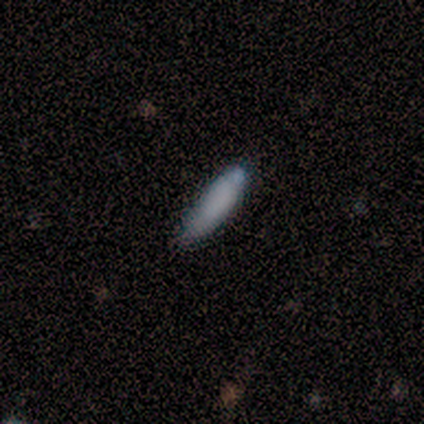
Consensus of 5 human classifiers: Volunteers were most divided on "how rounded" (2-way tie): in between: 50%, cigar-shaped: 50%, round: 0%. More confident: merging — none (100%); smooth or featured — smooth (80%).